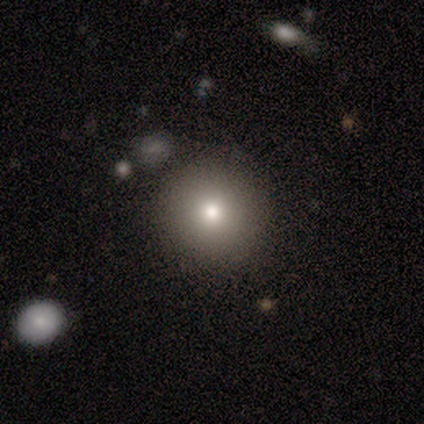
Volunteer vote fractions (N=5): Smooth or featured? smooth (80%)
How rounded? round (100%)
Merging? none (100%)